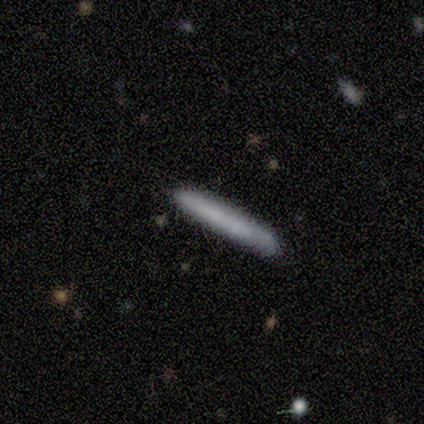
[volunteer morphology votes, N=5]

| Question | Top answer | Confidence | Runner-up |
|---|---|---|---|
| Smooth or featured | smooth | 100% | — |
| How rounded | cigar-shaped | 100% | — |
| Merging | none | 80% | minor disturbance (20%) |